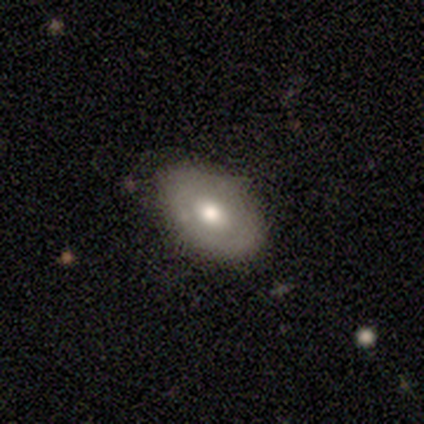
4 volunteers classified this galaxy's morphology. Smooth or featured? 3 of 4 (75%) said smooth. How rounded? 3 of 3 (100%) said in between. Merging? 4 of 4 (100%) said none.